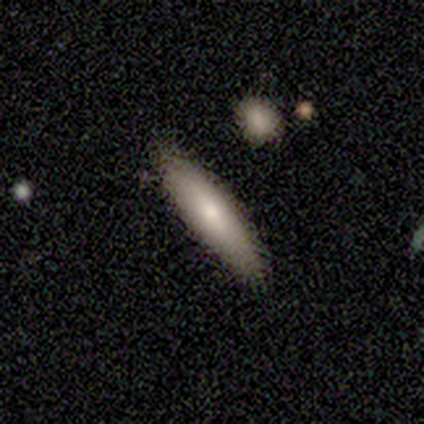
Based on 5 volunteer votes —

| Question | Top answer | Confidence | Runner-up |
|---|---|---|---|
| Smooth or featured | smooth | 100% | — |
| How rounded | in between | 60% | cigar-shaped (40%) |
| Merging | none | 100% | — |